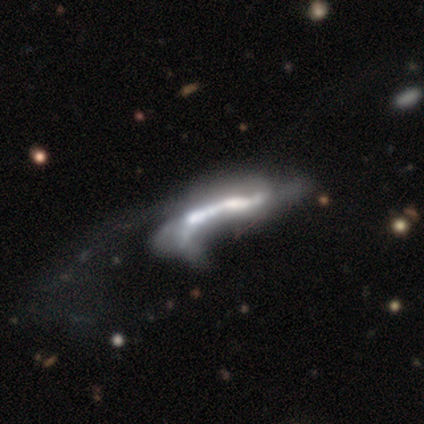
Smooth or featured? 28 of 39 (72%) said featured or disk. Edge-on disk? 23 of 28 (82%) said no. Bar? 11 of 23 (48%) said no. Spiral arms? 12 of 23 (52%) said no. Bulge size? 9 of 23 (39%) said moderate. Merging? 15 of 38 (39%) said merger.